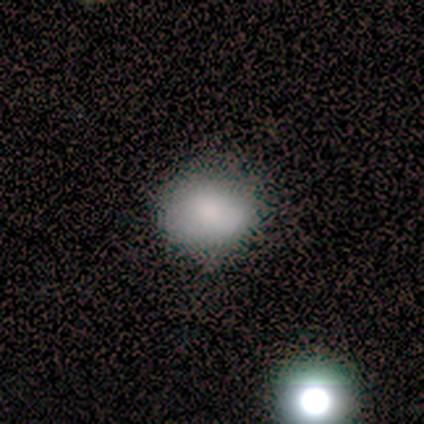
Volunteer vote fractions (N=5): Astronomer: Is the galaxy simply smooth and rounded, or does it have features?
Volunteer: smooth — 100%.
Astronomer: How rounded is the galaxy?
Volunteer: round — 80%.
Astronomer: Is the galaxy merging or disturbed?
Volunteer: none — 100%.